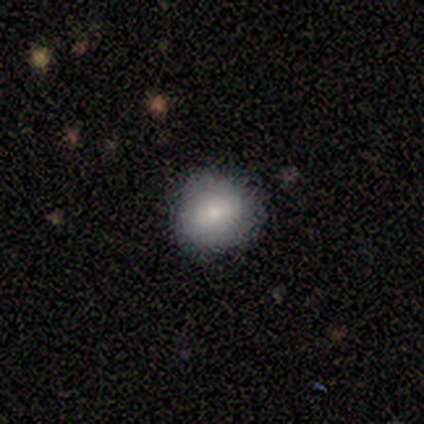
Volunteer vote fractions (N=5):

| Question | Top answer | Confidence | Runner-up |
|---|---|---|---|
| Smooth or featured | smooth | 80% | featured or disk (20%) |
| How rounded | round | 100% | — |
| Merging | none | 60% | minor disturbance (20%) |